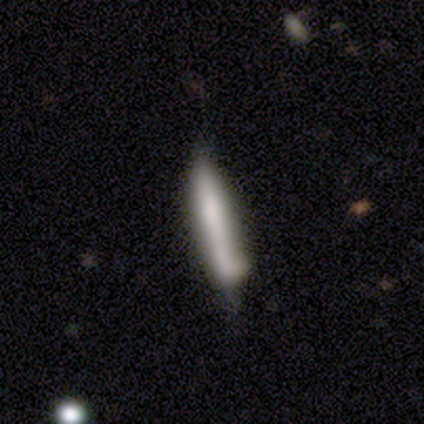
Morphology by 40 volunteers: Smooth or featured? smooth (55%)
How rounded? cigar-shaped (100%)
Merging? none (49%)